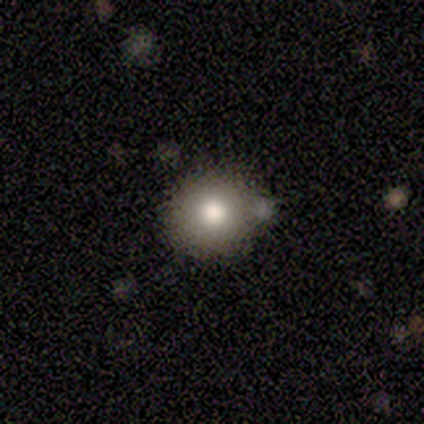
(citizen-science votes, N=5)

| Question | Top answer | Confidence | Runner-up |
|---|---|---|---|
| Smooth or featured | smooth | 100% | — |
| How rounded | round | 100% | — |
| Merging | minor disturbance | 80% | none (20%) |